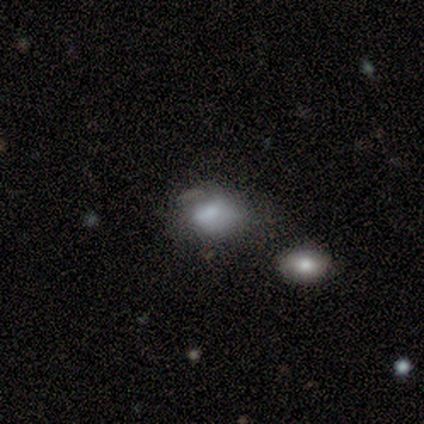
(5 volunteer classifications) smooth_or_featured: smooth (p=0.80) [alt: star or artifact p=0.20]
how_rounded: in between (p=0.75) [alt: round p=0.25]
merging: none (p=0.50) [alt: minor disturbance p=0.25]